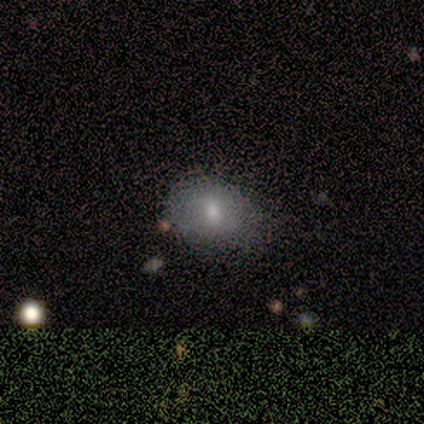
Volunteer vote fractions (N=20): Smooth or featured? 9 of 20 (45%, tied with featured or disk) said smooth. How rounded? 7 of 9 (78%) said in between. Merging? 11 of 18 (61%) said minor disturbance.